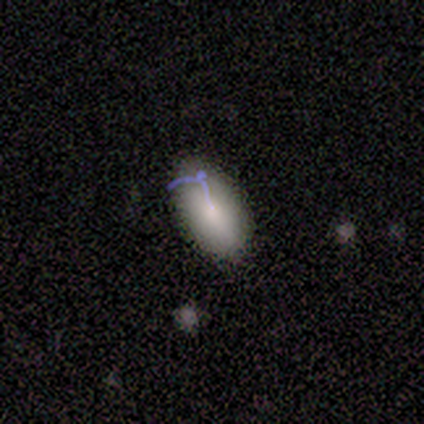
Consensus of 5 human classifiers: A smooth galaxy with no disk features (60%) that is in between round and cigar-shaped (100%).

Vote fractions:
- Smooth or featured? smooth: 60% / featured or disk: 20% / star or artifact: 20%
- How rounded? in between: 100% / round: 0% / cigar-shaped: 0%
- Merging? none: 50% / minor disturbance: 25% / major disturbance: 25% / merger: 0%